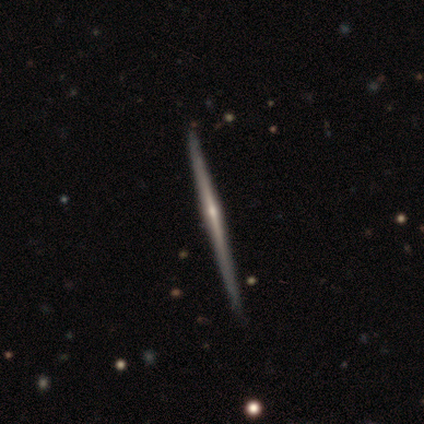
featured or disk 88%, smooth 8%, star or artifact 5%. Down the decision tree: edge-on disk — yes (100%); edge-on bulge — rounded (71%); merging — none (92%).